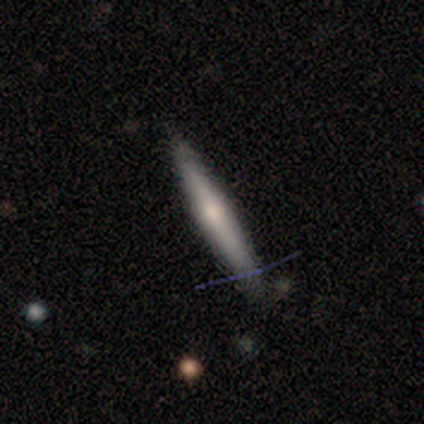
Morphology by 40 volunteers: A smooth galaxy with no disk features (55%) that is cigar-shaped (100%). Merging: none (79%).